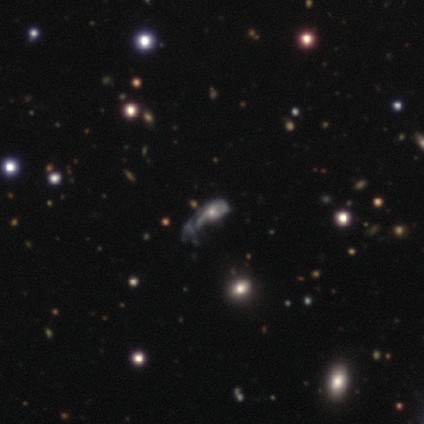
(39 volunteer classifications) Overall: featured or disk (79%). Edge-on disk: no (94%). Bar: no (83%). Spiral arms: yes (55%; no 45%). Spiral arm count: can't tell (44%; 1 38%). Spiral winding: tight (38%, tied with loose). Bulge size: moderate (48%; small 41%). Merging: major disturbance (69%).